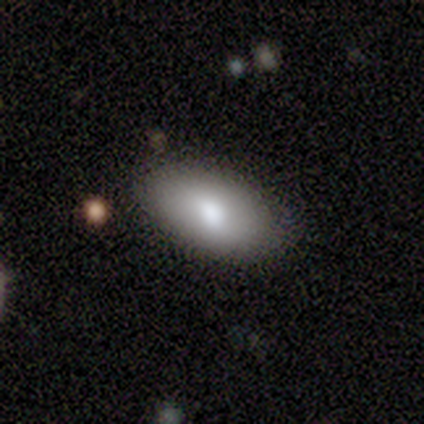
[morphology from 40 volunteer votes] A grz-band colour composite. It shows a smooth galaxy with no disk features (80%) that is in between round and cigar-shaped (84%). Merging: none (67%).